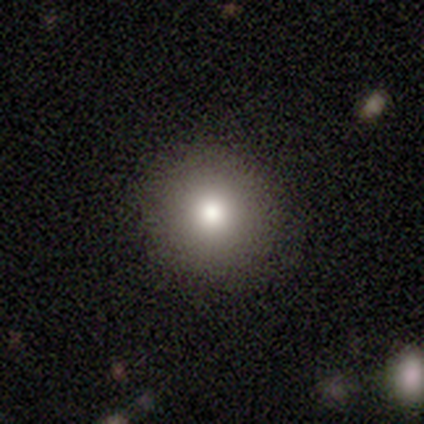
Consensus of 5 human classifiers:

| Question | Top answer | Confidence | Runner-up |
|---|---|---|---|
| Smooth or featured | smooth | 40% | tied: star or artifact (40%) |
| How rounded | round | 100% | — |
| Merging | none | 67% | minor disturbance (33%) |